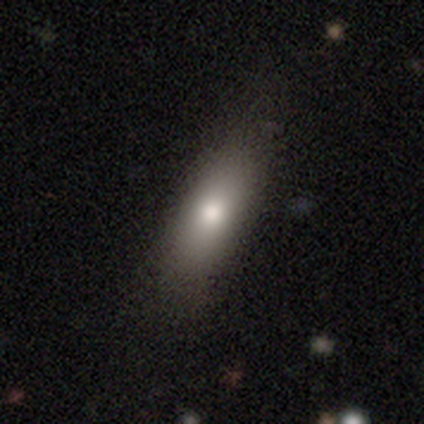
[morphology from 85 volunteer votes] This appears to be a smooth galaxy with no disk features (75%) that is in between round and cigar-shaped (69%). Merging: none (70%).